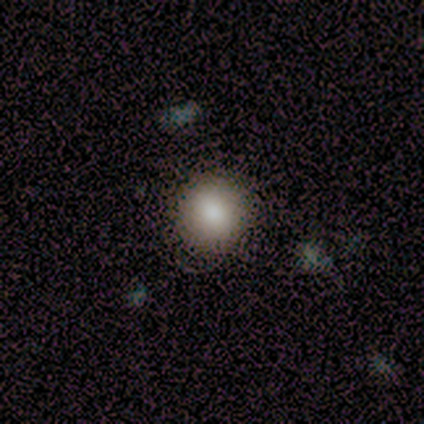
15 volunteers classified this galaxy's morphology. type=smooth (80%); roundness=round (92%); merging=none (86%).